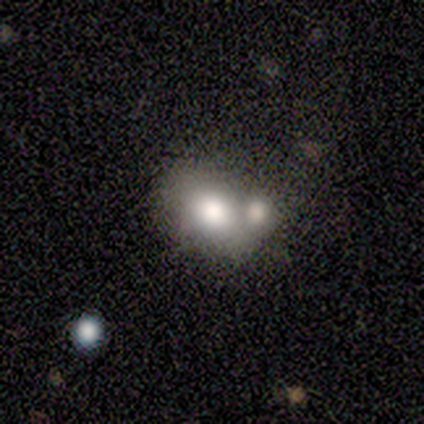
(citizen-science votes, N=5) This appears to be a smooth galaxy with no disk features (80%) that is round (50%, tied with in between). Merging: none (40%, tied with merger).